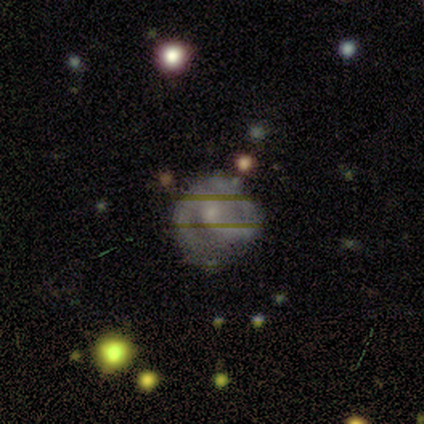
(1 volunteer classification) smooth_or_featured: smooth (p=1.00)
how_rounded: round (p=1.00)
merging: minor disturbance (p=1.00)